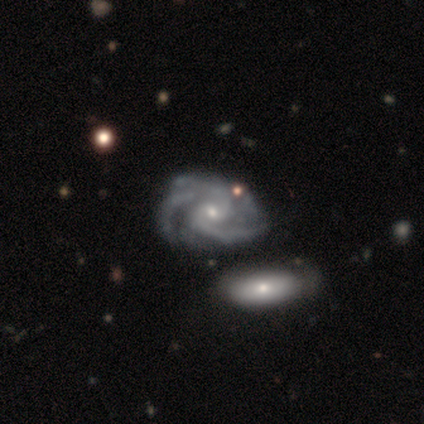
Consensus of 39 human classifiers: smooth_or_featured: featured or disk (p=1.00)
disk_edge_on: no (p=1.00)
bar: no (p=0.69) [alt: weak p=0.31]
has_spiral_arms: yes (p=1.00)
spiral_winding: tight (p=0.51) [alt: medium p=0.46]
spiral_arm_count: 3 (p=0.41) [alt: 2 p=0.38]
bulge_size: small (p=0.64) [alt: moderate p=0.36]
merging: none (p=0.33) [alt: merger p=0.31]